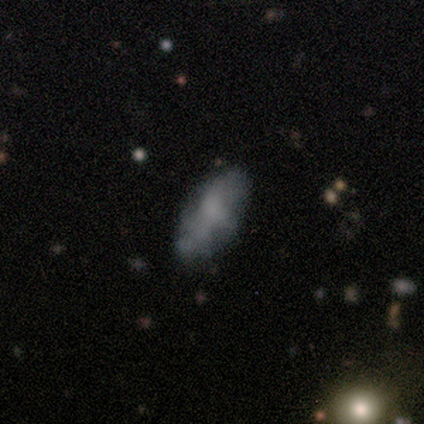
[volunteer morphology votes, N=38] This is possibly a smooth galaxy (53%). How rounded: clearly in between (80%). Merging: possibly none (59%).